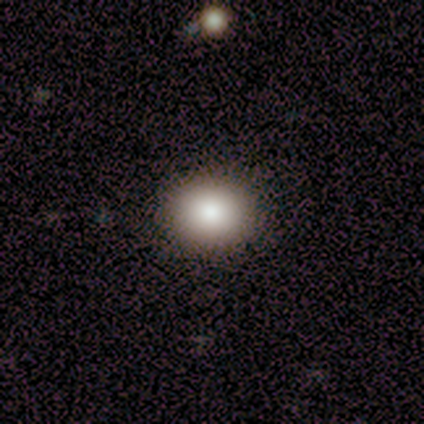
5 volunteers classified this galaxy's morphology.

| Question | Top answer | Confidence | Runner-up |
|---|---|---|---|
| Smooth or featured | smooth | 100% | — |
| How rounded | round | 60% | in between (40%) |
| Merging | none | 100% | — |